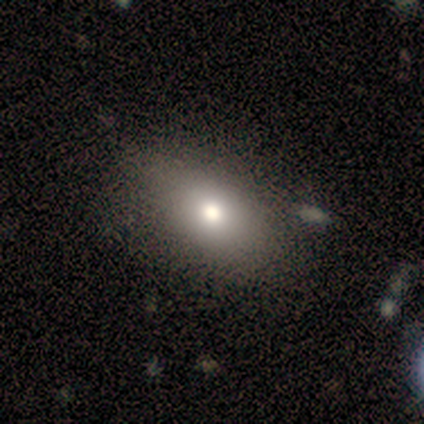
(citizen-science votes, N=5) A smooth galaxy with no disk features (100%) that is in between round and cigar-shaped (80%).

Vote fractions:
- Smooth or featured? smooth: 100% / featured or disk: 0% / star or artifact: 0%
- How rounded? in between: 80% / round: 20% / cigar-shaped: 0%
- Merging? none: 100% / minor disturbance: 0% / major disturbance: 0% / merger: 0%